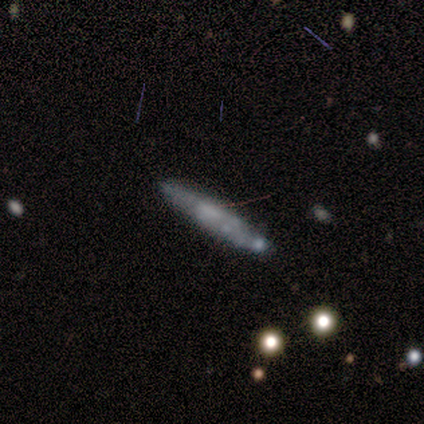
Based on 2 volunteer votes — Smooth or featured?
  - smooth: 100% *
  - featured or disk: 0%
  - star or artifact: 0%
How rounded?
  - cigar-shaped: 100% *
  - round: 0%
  - in between: 0%
Merging?
  - none: 50% * (tied)
  - major disturbance: 50% * (tied)
  - minor disturbance: 0%
  - merger: 0%